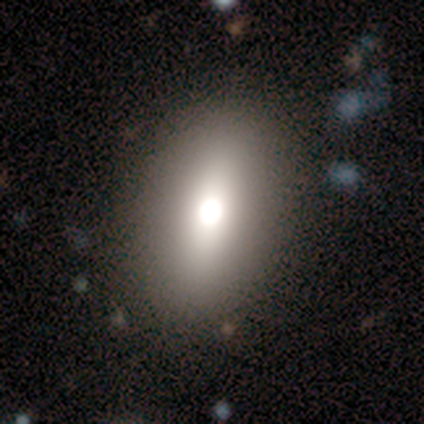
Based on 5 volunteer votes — smooth_or_featured: smooth (p=0.60) [alt: featured or disk p=0.40]
how_rounded: round (p=0.67) [alt: in between p=0.33]
merging: none (p=0.80) [alt: major disturbance p=0.20]